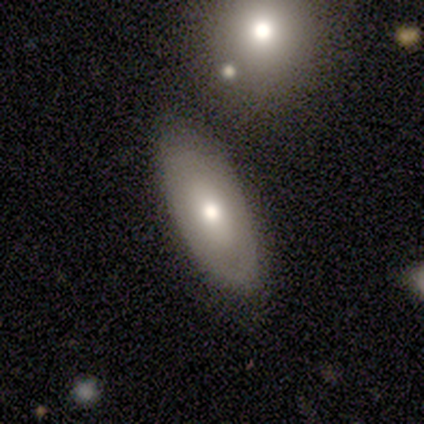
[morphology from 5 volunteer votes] smooth 80%, featured or disk 20%, star or artifact 0%. Down the decision tree: how rounded — in between (100%); merging — none (80%).